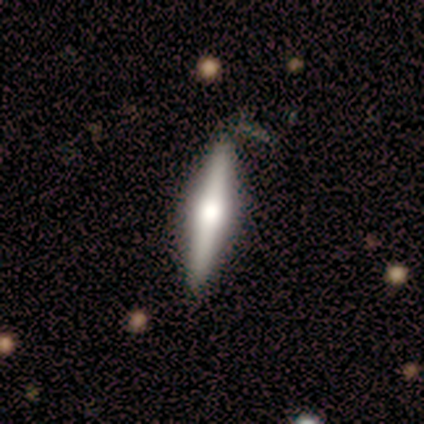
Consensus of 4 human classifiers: Smooth or featured? 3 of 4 (75%) said featured or disk. Edge-on disk? 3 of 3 (100%) said yes. Edge-on bulge? 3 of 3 (100%) said rounded. Merging? 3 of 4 (75%) said none.